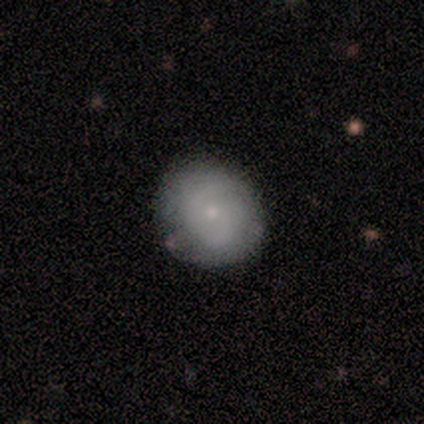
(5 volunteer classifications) A smooth galaxy with no disk features (80%) that is round (50%, tied with in between).

Vote fractions:
- Smooth or featured? smooth: 80% / featured or disk: 20% / star or artifact: 0%
- How rounded? round: 50% (tied) / in between: 50% (tied) / cigar-shaped: 0%
- Merging? none: 60% / minor disturbance: 40% / major disturbance: 0% / merger: 0%